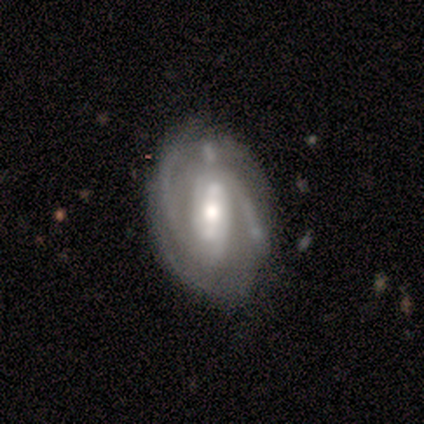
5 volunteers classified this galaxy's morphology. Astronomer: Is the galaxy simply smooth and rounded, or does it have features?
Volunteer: featured or disk — 100%.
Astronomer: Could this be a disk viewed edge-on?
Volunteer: no — 100%.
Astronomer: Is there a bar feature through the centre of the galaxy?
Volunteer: strong — 40%, tied with weak at 40%.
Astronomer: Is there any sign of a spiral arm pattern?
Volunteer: yes — 100%.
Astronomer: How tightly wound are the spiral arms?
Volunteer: tight — 60% (runner-up: medium, 40%).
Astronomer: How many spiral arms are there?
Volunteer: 2 — 60%.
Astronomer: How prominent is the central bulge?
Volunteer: moderate — 100%.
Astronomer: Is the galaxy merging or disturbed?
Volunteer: minor disturbance — 40% (runner-up: none, 20%).